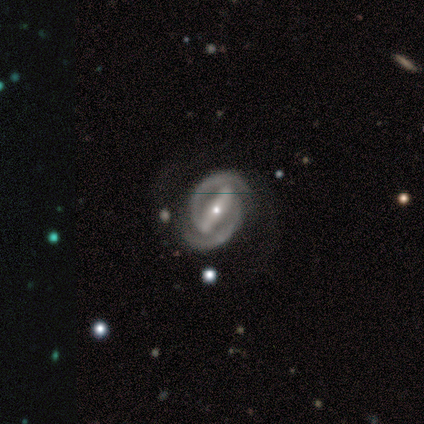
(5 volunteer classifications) A featured or disk galaxy (100%) with a strong bar (80%), 2 (100%) tight (40%, tied with medium) spiral arms (100%) and a small central bulge (80%).

Vote fractions:
- Smooth or featured? featured or disk: 100% / smooth: 0% / star or artifact: 0%
- Edge-on disk? no: 100% / yes: 0%
- Bar? strong: 80% / no: 20% / weak: 0%
- Spiral arms? yes: 100% / no: 0%
- Spiral winding? tight: 40% (tied) / medium: 40% (tied) / loose: 20%
- Spiral arm count? 2: 100% / 1: 0% / 3: 0% / 4: 0% / more than 4: 0% / can't tell: 0%
- Bulge size? small: 80% / moderate: 20% / dominant: 0% / large: 0% / none: 0%
- Merging? none: 100% / minor disturbance: 0% / major disturbance: 0% / merger: 0%